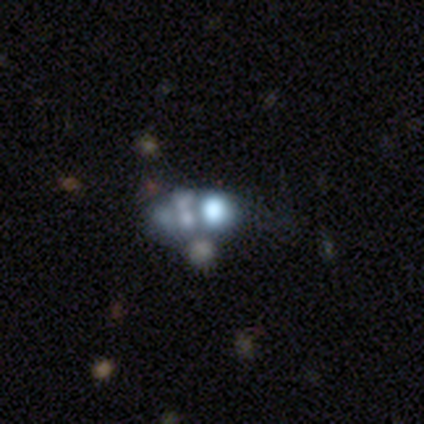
This appears to be a featured or disk galaxy (60%) with no bar (100%), no spiral arms (96%) and no central bulge (42%). Merging: merger (48%).